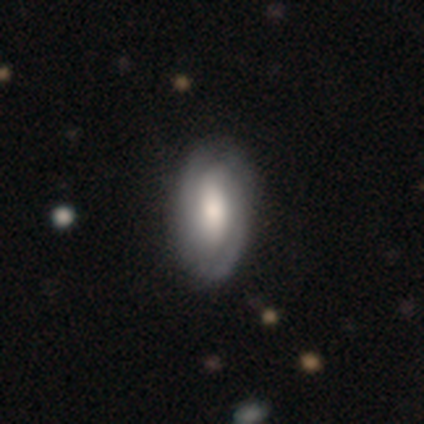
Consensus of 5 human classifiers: A featured or disk galaxy (60%) with a strong bar (67%), 2 (100%) tight (100%) spiral arms (100%) and a large central bulge (33%, tied with moderate and none). Merging: none (60%).